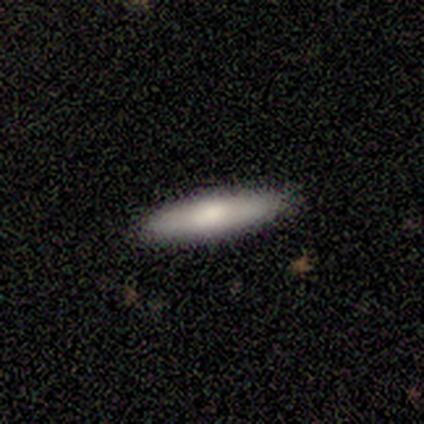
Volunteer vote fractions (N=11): This is likely a smooth galaxy (64%). How rounded: likely cigar-shaped (71%). Merging: clearly none (90%).